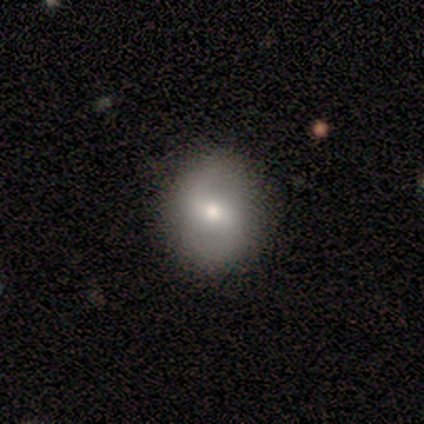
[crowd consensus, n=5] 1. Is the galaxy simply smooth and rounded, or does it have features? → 80% featured or disk, 20% smooth, 0% star or artifact.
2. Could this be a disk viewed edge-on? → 100% no, 0% yes.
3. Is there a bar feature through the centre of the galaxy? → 75% no, 25% weak, 0% strong.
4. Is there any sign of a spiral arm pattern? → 75% yes, 25% no.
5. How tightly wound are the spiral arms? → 100% loose, 0% tight, 0% medium.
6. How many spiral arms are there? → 100% 2, 0% 1, 0% 3, 0% 4, 0% more than 4, 0% can't tell.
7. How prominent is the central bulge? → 50% moderate, 25% small, 25% none, 0% dominant, 0% large.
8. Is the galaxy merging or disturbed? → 100% none, 0% minor disturbance, 0% major disturbance, 0% merger.